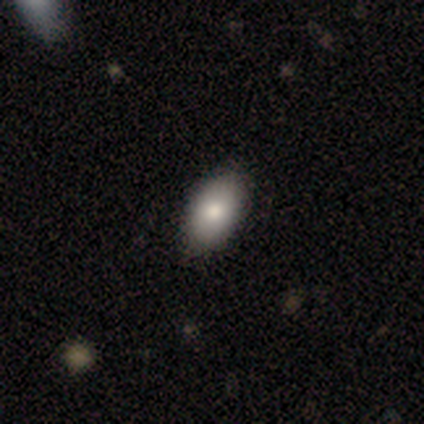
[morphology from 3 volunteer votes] smooth_or_featured: smooth (p=1.00)
how_rounded: in between (p=1.00)
merging: none (p=1.00)